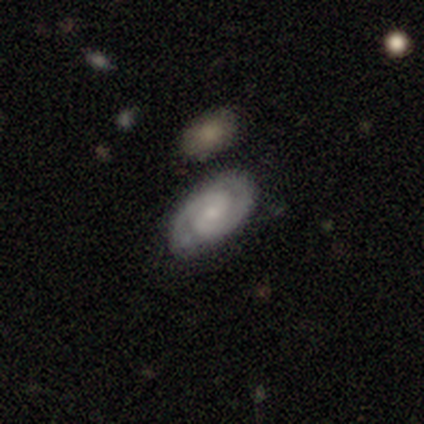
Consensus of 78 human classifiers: smooth-or-featured: featured or disk: 87% | smooth: 10% | star or artifact: 3%
  disk-edge-on: no: 97% | yes: 3%
    bar: no: 55% | weak: 39% | strong: 6%
    has-spiral-arms: yes: 98% | no: 2%
      spiral-winding: tight: 58% | medium: 32% | loose: 9%
      spiral-arm-count: 2: 95% | can't tell: 3% | 3: 2% | 1: 0% | 4: 0% | more than 4: 0%
    bulge-size: small: 53% | moderate: 27% | none: 17% | large: 3% | dominant: 0%
  merging: none: 53% | merger: 9% | minor disturbance: 7% | major disturbance: 3%